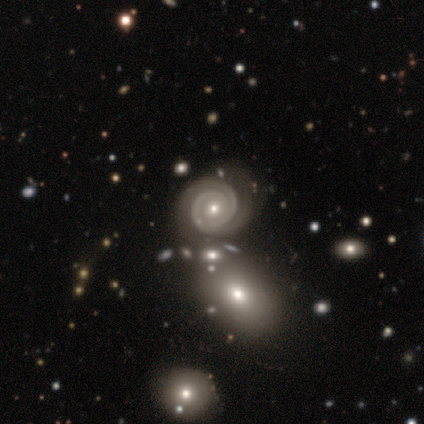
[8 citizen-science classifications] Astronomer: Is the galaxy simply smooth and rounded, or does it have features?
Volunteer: featured or disk — 100%.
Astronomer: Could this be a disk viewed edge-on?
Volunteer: no — 100%.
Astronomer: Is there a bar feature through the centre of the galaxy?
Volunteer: no — 100%.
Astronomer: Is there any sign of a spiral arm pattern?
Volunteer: yes — 100%.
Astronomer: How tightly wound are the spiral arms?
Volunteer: tight — 88%.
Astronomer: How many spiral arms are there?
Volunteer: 2 — 88%.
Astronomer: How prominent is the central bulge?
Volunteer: small — 88%.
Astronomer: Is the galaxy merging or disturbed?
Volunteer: none — 75%.